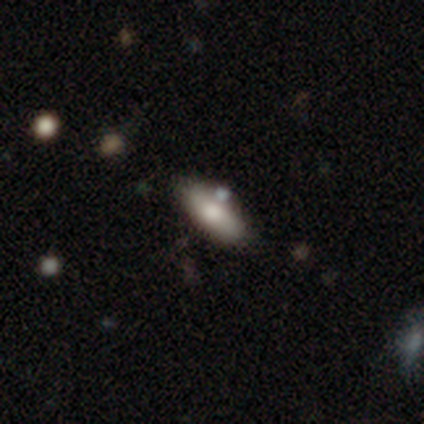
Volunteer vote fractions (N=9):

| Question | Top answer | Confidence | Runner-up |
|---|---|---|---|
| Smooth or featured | smooth | 89% | star or artifact (11%) |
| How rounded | cigar-shaped | 75% | in between (25%) |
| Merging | none | 88% | minor disturbance (12%) |